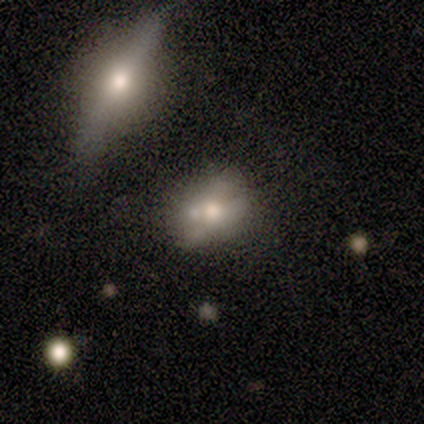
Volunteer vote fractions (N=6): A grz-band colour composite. It shows a smooth galaxy with no disk features (67%) that is in between round and cigar-shaped (100%). Merging: merger (50%).